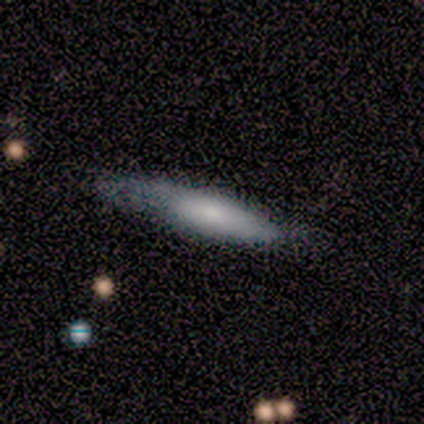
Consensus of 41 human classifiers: Q: Smooth or featured?
A: smooth (63%); runner-up: featured or disk (29%)
Q: How rounded?
A: cigar-shaped (69%); runner-up: in between (27%)
Q: Merging?
A: none (50%); runner-up: minor disturbance (39%)